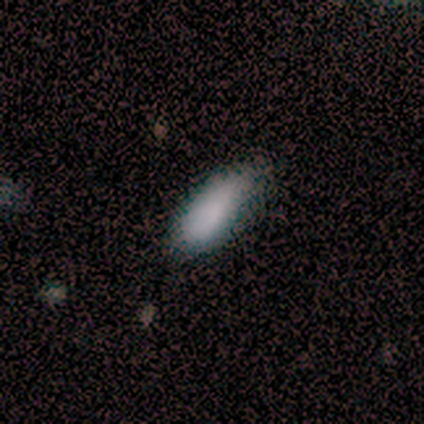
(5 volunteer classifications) smooth_or_featured: smooth (p=1.00)
how_rounded: in between (p=1.00)
merging: none (p=0.80) [alt: minor disturbance p=0.20]